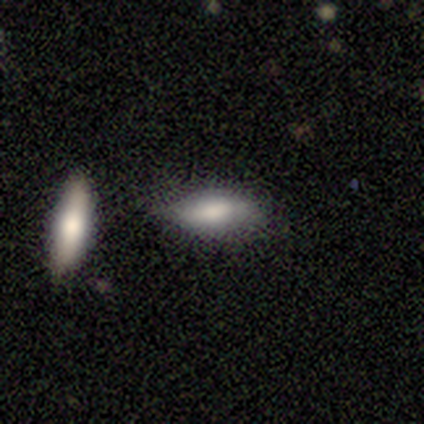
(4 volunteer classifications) Q: Smooth or featured?
A: smooth (50%); runner-up: featured or disk (25%)
Q: How rounded?
A: in between (50%); tied with: cigar-shaped (50%)
Q: Merging?
A: none (33%); tied with: minor disturbance (33%); merger (33%)